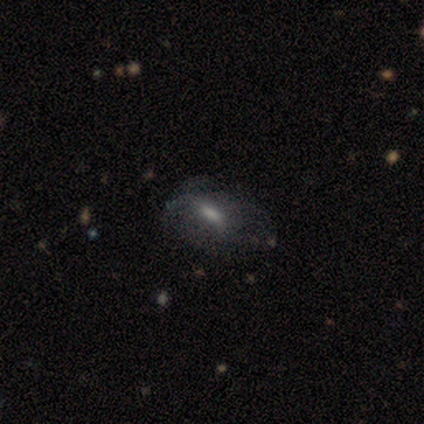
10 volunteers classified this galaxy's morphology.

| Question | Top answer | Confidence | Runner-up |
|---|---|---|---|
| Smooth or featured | smooth | 50% | featured or disk (40%) |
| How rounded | in between | 100% | — |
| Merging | none | 44% | tied: minor disturbance (44%) |